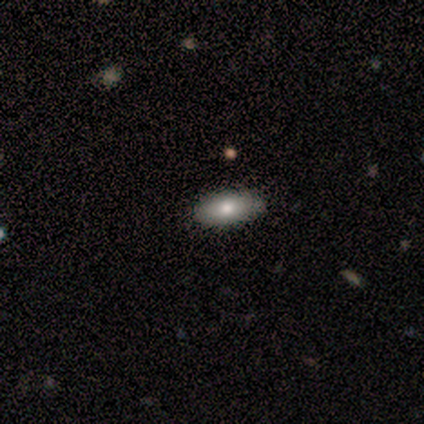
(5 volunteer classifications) A smooth galaxy with no disk features (80%) that is in between round and cigar-shaped (75%). Merging: none (80%).